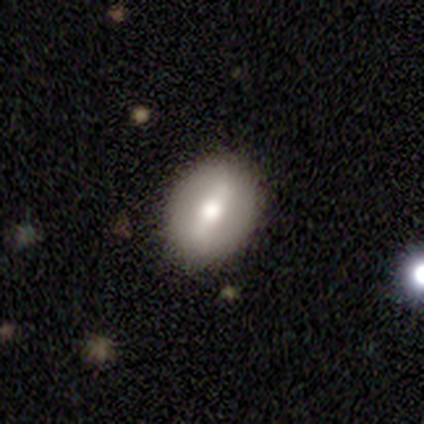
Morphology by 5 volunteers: smooth-or-featured: featured or disk: 60% | smooth: 40% | star or artifact: 0%
  disk-edge-on: no: 100% | yes: 0%
    bar: strong: 67% | no: 33% | weak: 0%
    has-spiral-arms: no: 100% | yes: 0%
    bulge-size: moderate: 100% | dominant: 0% | large: 0% | small: 0% | none: 0%
  merging: none: 100% | minor disturbance: 0% | major disturbance: 0% | merger: 0%